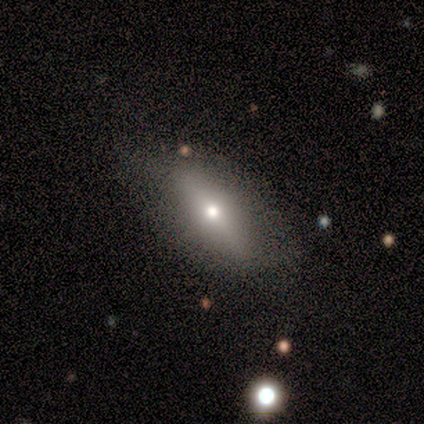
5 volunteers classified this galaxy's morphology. Overall: smooth (80%). How rounded: in between (100%). Merging: none (80%).